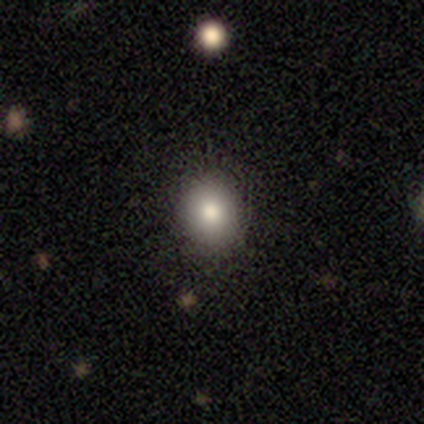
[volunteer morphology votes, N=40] Volunteers were most divided on "how rounded": round: 64%, in between: 36%, cigar-shaped: 0%. More confident: smooth or featured — smooth (90%); merging — none (89%).